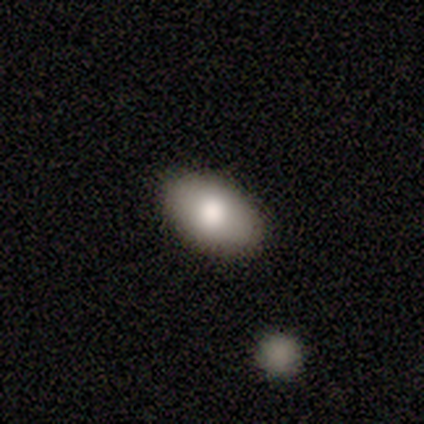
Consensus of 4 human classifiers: smooth-or-featured: smooth: 100% | featured or disk: 0% | star or artifact: 0%
  how-rounded: in between: 100% | round: 0% | cigar-shaped: 0%
  merging: none: 75% | minor disturbance: 25% | major disturbance: 0% | merger: 0%